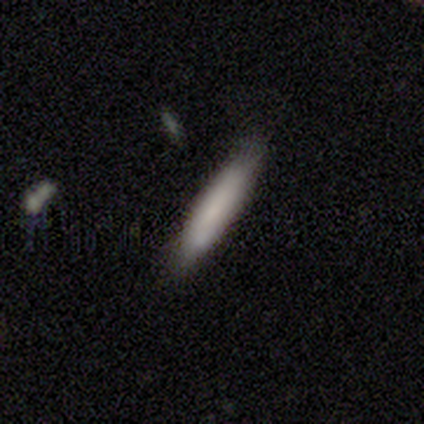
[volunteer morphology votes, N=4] Smooth or featured? smooth (75%)
How rounded? cigar-shaped (100%)
Merging? none (100%)